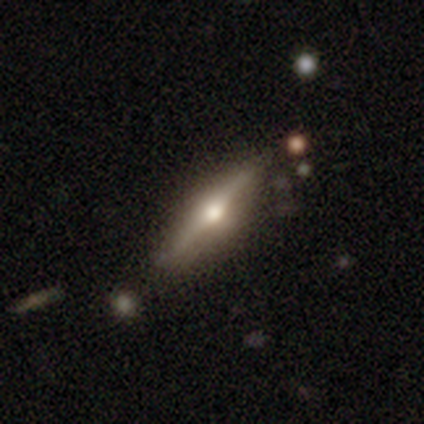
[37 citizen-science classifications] Smooth or featured: featured or disk — 78% (smooth — 19%)
Edge-on disk: yes — 100%
Edge-on bulge: rounded — 86% (boxy — 7%)
Merging: none — 75% (minor disturbance — 25%)